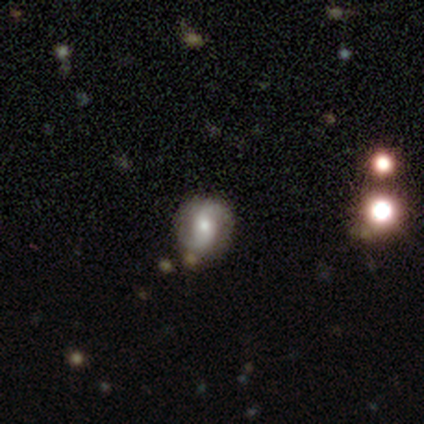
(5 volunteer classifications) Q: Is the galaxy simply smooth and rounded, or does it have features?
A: featured or disk — 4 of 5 (80%).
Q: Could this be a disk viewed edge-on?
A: no — 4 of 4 (100%).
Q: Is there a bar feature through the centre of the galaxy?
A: no — 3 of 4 (75%).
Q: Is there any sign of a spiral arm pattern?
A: yes — 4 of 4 (100%).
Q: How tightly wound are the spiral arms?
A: loose — 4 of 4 (100%).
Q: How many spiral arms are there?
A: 2 — 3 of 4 (75%).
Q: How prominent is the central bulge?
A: moderate — 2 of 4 (50%, tied with small).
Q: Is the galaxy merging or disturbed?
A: none — 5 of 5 (100%).